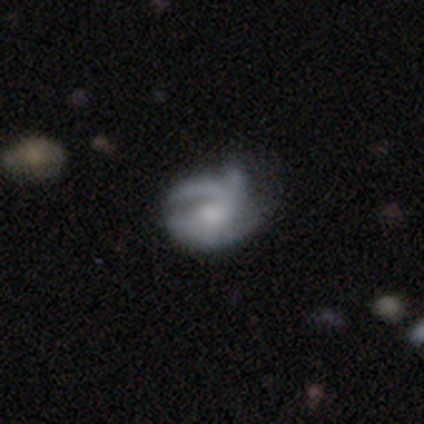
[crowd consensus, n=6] smooth 50% (tied), featured or disk 50% (tied), star or artifact 0%. Down the decision tree: how rounded — in between (67%); merging — none (50%, tied with minor disturbance).